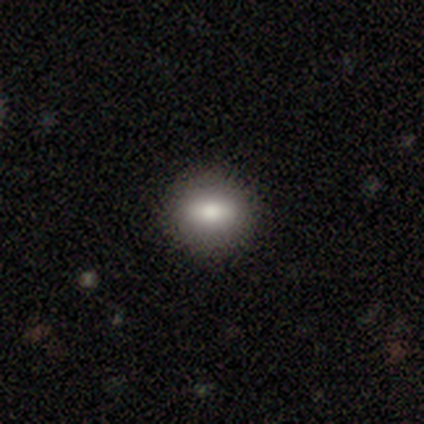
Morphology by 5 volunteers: Smooth or featured: smooth — 80% (featured or disk — 20%)
How rounded: in between — 75% (round — 25%)
Merging: none — 100%